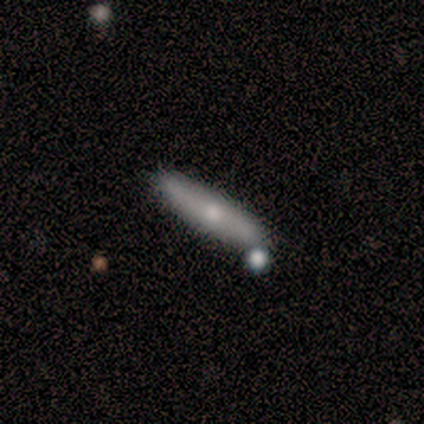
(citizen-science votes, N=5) Q: Smooth or featured?
A: smooth (80%); runner-up: featured or disk (20%)
Q: How rounded?
A: cigar-shaped (100%)
Q: Merging?
A: none (60%); runner-up: merger (40%)